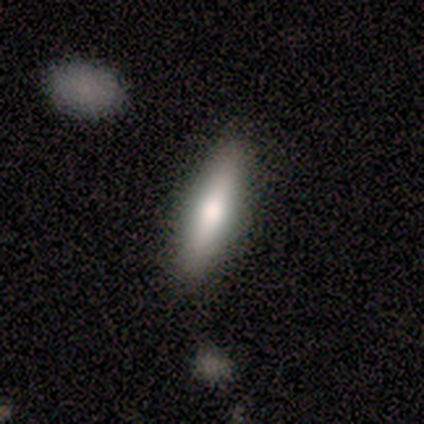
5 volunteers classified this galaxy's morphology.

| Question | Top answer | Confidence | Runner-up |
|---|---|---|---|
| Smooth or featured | smooth | 60% | featured or disk (40%) |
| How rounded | cigar-shaped | 100% | — |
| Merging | none | 100% | — |